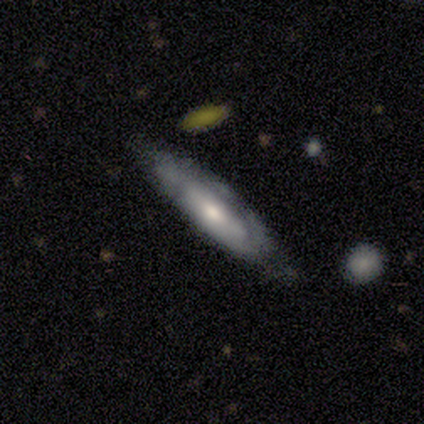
This appears to be a smooth galaxy with no disk features (80%) that is in between round and cigar-shaped (50%, tied with cigar-shaped). Merging: none (80%).